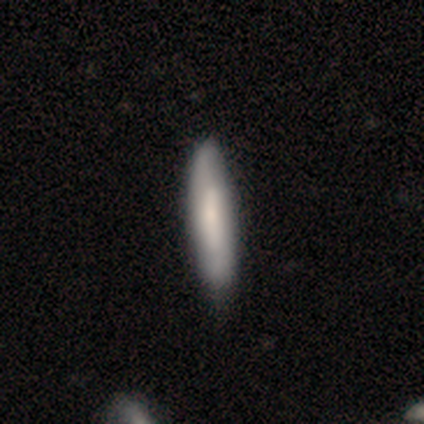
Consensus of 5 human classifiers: smooth-or-featured: smooth: 60% | featured or disk: 40% | star or artifact: 0%
  how-rounded: cigar-shaped: 67% | in between: 33% | round: 0%
  merging: none: 100% | minor disturbance: 0% | major disturbance: 0% | merger: 0%